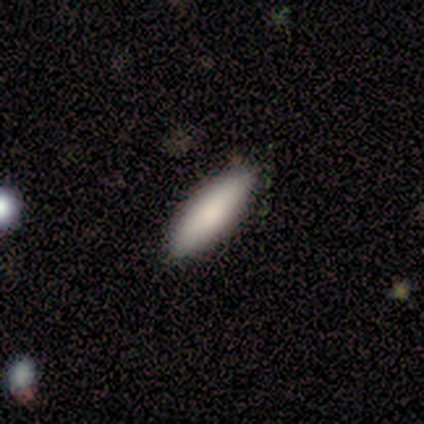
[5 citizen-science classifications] smooth_or_featured: smooth (p=1.00)
how_rounded: cigar-shaped (p=0.60) [alt: in between p=0.40]
merging: none (p=1.00)